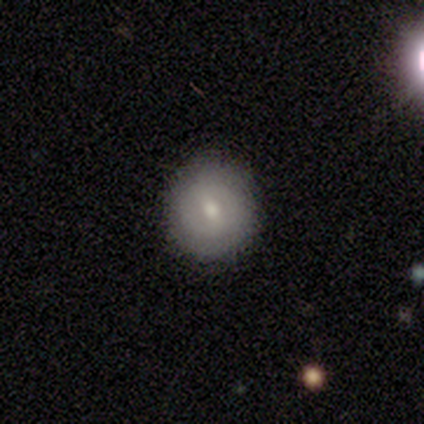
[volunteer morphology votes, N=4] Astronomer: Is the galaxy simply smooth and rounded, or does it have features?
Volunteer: smooth — 50%, tied with featured or disk at 50%.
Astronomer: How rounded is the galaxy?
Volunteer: round — 100%.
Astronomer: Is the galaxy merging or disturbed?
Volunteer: none — 50%.